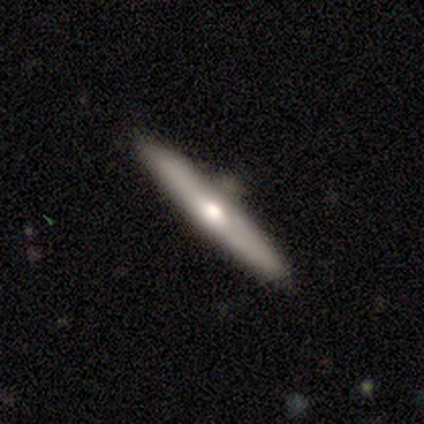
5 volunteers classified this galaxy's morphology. Smooth or featured? featured or disk (60%)
Edge-on disk? yes (100%)
Edge-on bulge? rounded (100%)
Merging? none (80%)